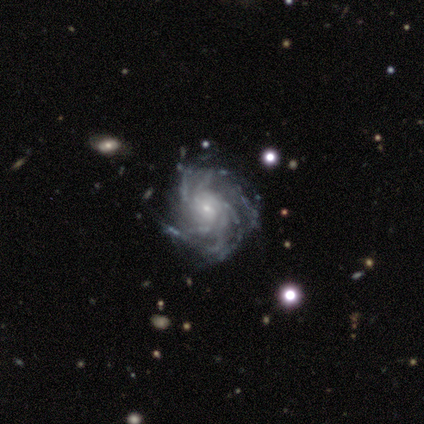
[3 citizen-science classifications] smooth-or-featured: featured or disk: 100% | smooth: 0% | star or artifact: 0%
  disk-edge-on: no: 100% | yes: 0%
    bar: no: 67% | weak: 33% | strong: 0%
    has-spiral-arms: yes: 100% | no: 0%
      spiral-winding: medium: 67% | tight: 33% | loose: 0%
      spiral-arm-count: more than 4: 100% | 1: 0% | 2: 0% | 3: 0% | 4: 0% | can't tell: 0%
    bulge-size: small: 100% | dominant: 0% | large: 0% | moderate: 0% | none: 0%
  merging: none: 67% | minor disturbance: 33% | major disturbance: 0% | merger: 0%